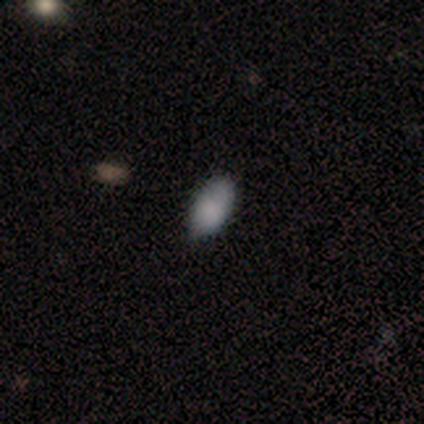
Volunteers were most divided on "merging": none: 67%, minor disturbance: 27%, major disturbance: 6%, merger: 0%. More confident: how rounded — in between (90%); smooth or featured — smooth (78%).